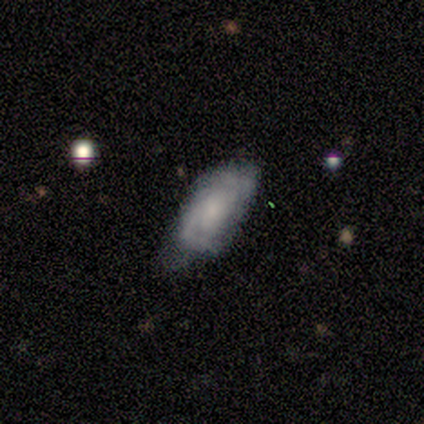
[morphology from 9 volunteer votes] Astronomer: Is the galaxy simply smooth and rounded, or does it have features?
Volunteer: featured or disk — 78%.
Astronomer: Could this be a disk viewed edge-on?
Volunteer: no — 100%.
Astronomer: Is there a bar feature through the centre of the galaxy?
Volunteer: weak — 57% (runner-up: no, 43%).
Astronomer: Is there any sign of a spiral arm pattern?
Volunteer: yes — 86%.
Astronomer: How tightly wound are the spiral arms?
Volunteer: tight — 67%.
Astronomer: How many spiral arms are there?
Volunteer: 2 — 50%.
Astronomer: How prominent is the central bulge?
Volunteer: small — 57%.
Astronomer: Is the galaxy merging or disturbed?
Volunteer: none — 67%.